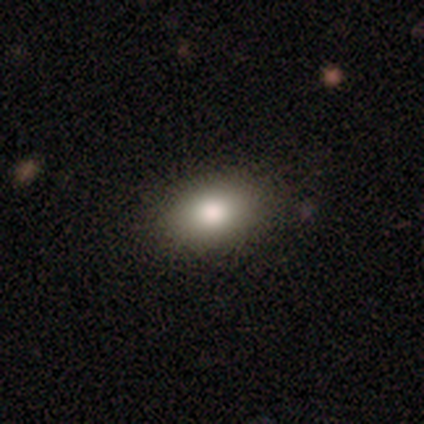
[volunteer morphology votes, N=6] Q: Smooth or featured?
A: smooth (100%)
Q: How rounded?
A: in between (83%); runner-up: cigar-shaped (17%)
Q: Merging?
A: none (100%)